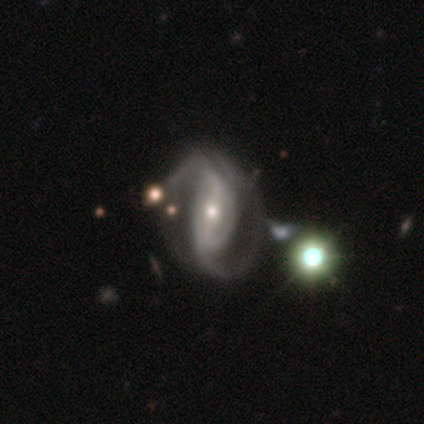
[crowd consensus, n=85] featured or disk 84%, smooth 8%, star or artifact 8%. Down the decision tree: edge-on disk — no (97%); bar — strong (51%); spiral arms — yes (100%); spiral arm count — 2 (74%); spiral winding — medium (41%); bulge size — moderate (49%); merging — none (54%).